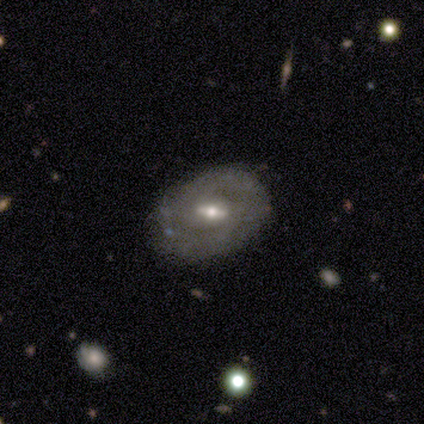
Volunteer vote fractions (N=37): Smooth or featured? 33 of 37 (89%) said featured or disk. Edge-on disk? 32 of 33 (97%) said no. Bar? 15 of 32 (47%) said weak. Spiral arms? 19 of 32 (59%) said yes. Spiral winding? 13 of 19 (68%) said tight. Spiral arm count? 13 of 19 (68%) said 2. Bulge size? 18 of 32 (56%) said moderate. Merging? 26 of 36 (72%) said none.